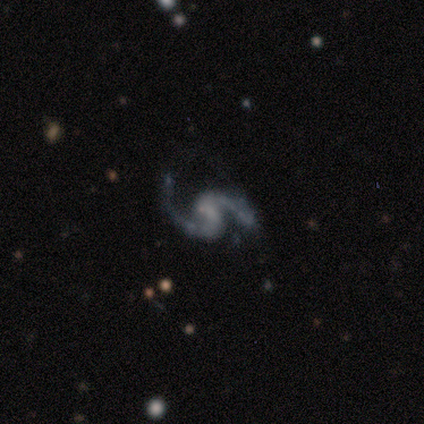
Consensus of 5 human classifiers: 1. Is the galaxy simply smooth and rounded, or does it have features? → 80% featured or disk, 20% smooth, 0% star or artifact.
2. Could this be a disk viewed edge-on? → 100% no, 0% yes.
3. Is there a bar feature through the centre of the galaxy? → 50% weak (tied), 50% no (tied), 0% strong.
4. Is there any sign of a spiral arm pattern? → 100% yes, 0% no.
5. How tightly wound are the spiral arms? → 75% medium, 25% loose, 0% tight.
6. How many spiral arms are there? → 100% 2, 0% 1, 0% 3, 0% 4, 0% more than 4, 0% can't tell.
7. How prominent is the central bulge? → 50% small (tied), 50% none (tied), 0% dominant, 0% large, 0% moderate.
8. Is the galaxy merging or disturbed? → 60% none, 20% minor disturbance, 20% merger, 0% major disturbance.